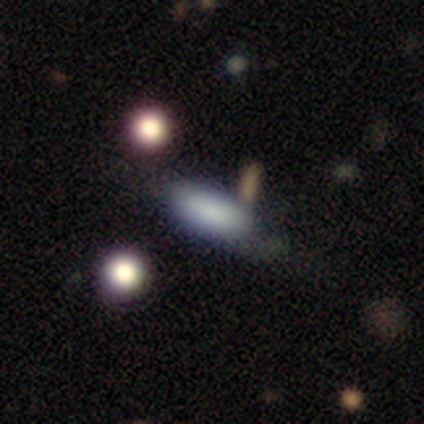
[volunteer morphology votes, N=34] Q: Smooth or featured?
A: smooth (79%); runner-up: star or artifact (12%)
Q: How rounded?
A: in between (67%); runner-up: cigar-shaped (33%)
Q: Merging?
A: none (63%); runner-up: minor disturbance (17%)